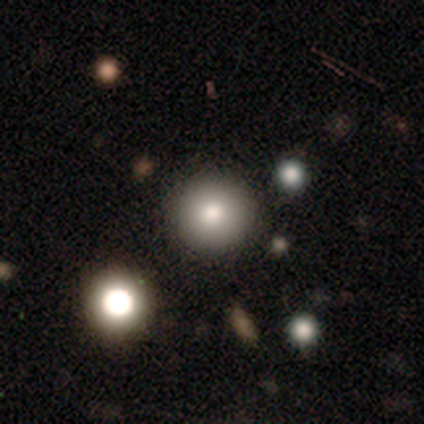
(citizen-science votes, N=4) smooth 75%, featured or disk 25%, star or artifact 0%. Down the decision tree: how rounded — round (100%); merging — none (100%).